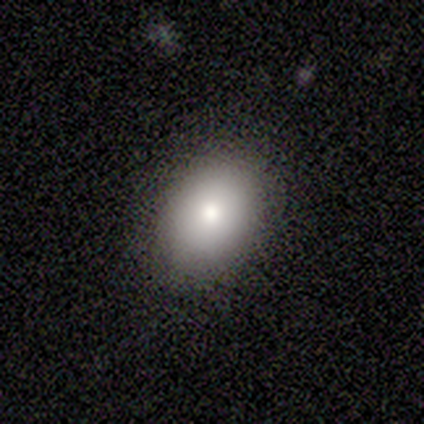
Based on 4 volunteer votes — A smooth galaxy with no disk features (100%) that is round (50%, tied with in between).

Vote fractions:
- Smooth or featured? smooth: 100% / featured or disk: 0% / star or artifact: 0%
- How rounded? round: 50% (tied) / in between: 50% (tied) / cigar-shaped: 0%
- Merging? none: 75% / minor disturbance: 25% / major disturbance: 0% / merger: 0%